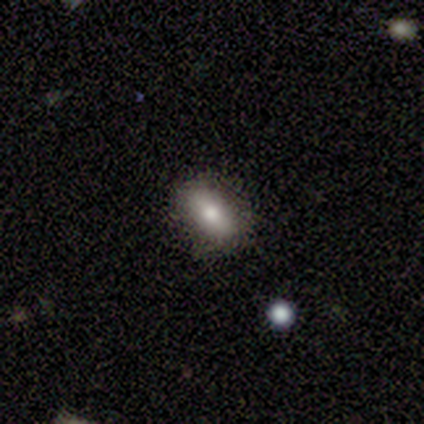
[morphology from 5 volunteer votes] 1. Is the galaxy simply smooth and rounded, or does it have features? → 80% smooth, 20% featured or disk, 0% star or artifact.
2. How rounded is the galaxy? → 100% in between, 0% round, 0% cigar-shaped.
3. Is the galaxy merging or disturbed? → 80% none, 20% minor disturbance, 0% major disturbance, 0% merger.